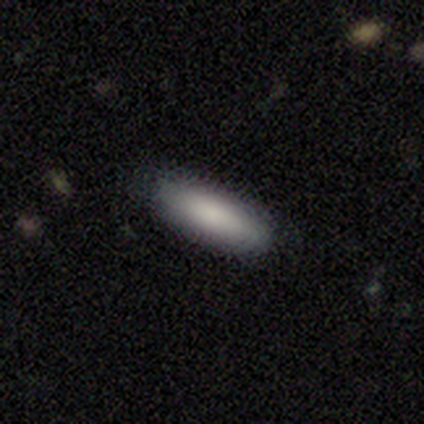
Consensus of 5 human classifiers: This is clearly a smooth galaxy (100%). How rounded: clearly in between (80%). Merging: clearly none (100%).